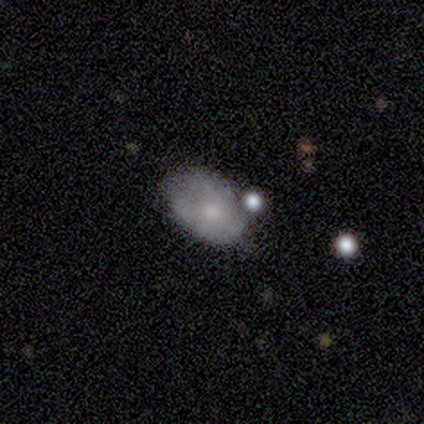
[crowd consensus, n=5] This is clearly a smooth galaxy (80%). How rounded: clearly in between (100%). Merging: likely minor disturbance (60%).